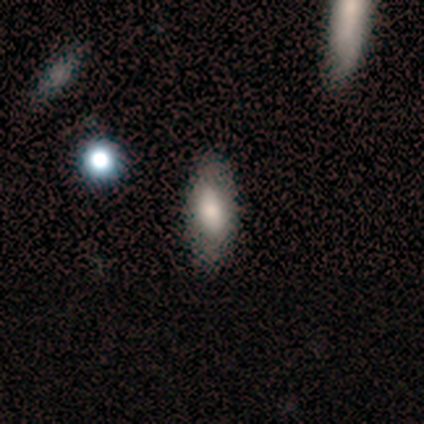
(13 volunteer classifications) Overall: smooth (77%). How rounded: in between (90%). Merging: none (69%; minor disturbance 31%).